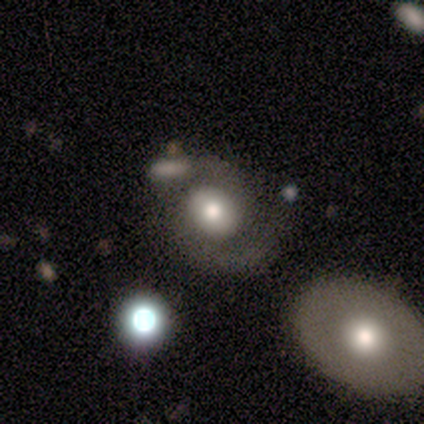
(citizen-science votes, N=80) smooth_or_featured: featured or disk (p=0.66) [alt: smooth p=0.31]
disk_edge_on: no (p=1.00)
bar: no (p=0.79) [alt: weak p=0.19]
has_spiral_arms: yes (p=0.75) [alt: no p=0.25]
spiral_winding: medium (p=0.55) [alt: tight p=0.35]
spiral_arm_count: 2 (p=0.90) [alt: can't tell p=0.07]
bulge_size: moderate (p=0.53) [alt: large p=0.32]
merging: none (p=0.49) [alt: minor disturbance p=0.22]